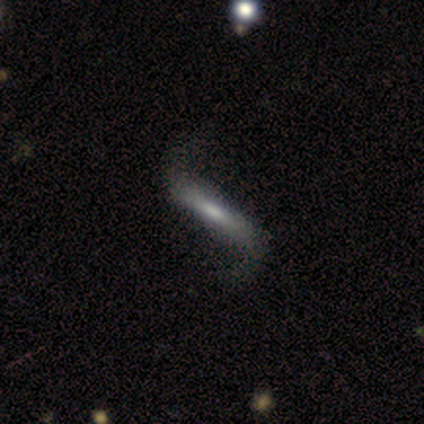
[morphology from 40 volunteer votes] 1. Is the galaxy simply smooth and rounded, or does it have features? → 62% featured or disk, 32% smooth, 5% star or artifact.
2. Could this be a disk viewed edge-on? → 76% no, 24% yes.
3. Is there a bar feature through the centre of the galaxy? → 47% weak, 37% strong, 16% no.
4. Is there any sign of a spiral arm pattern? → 95% yes, 5% no.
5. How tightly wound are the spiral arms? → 100% loose, 0% tight, 0% medium.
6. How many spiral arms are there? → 94% 2, 6% can't tell, 0% 1, 0% 3, 0% 4, 0% more than 4.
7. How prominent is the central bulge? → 47% moderate, 37% small, 16% none, 0% dominant, 0% large.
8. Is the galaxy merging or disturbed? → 68% none, 21% minor disturbance, 11% major disturbance, 0% merger.